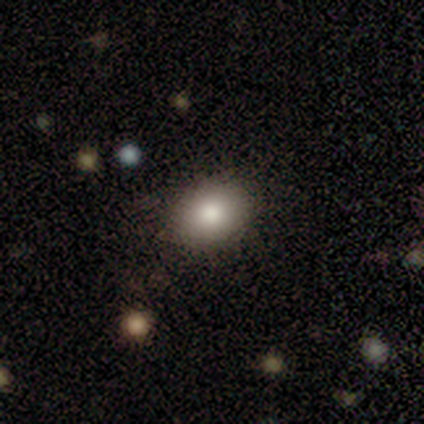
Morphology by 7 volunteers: Smooth or featured? 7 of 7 (100%) said smooth. How rounded? 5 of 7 (71%) said in between. Merging? 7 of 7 (100%) said none.